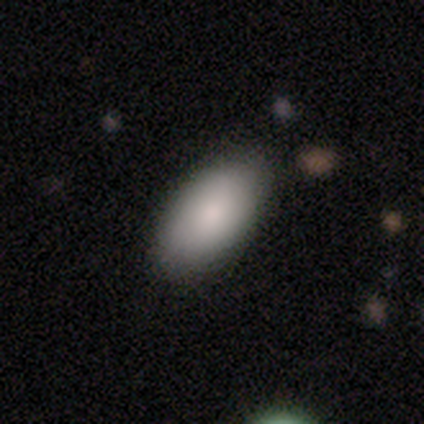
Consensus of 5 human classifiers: A smooth galaxy with no disk features (80%) that is in between round and cigar-shaped (100%). Merging: none (75%).